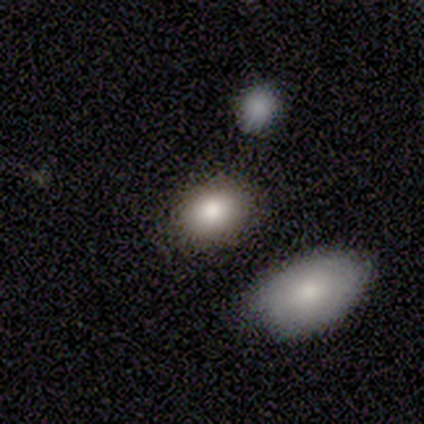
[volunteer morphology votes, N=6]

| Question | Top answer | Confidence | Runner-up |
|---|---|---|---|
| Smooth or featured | smooth | 83% | star or artifact (17%) |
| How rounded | in between | 100% | — |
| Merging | none | 80% | minor disturbance (20%) |